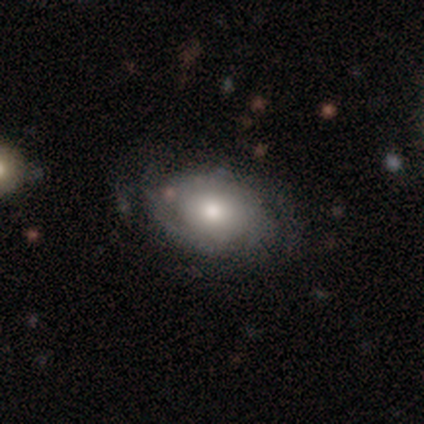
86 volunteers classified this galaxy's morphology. Smooth or featured? featured or disk (51%)
Edge-on disk? no (98%)
Bar? no (84%)
Spiral arms? yes (77%)
Spiral winding? tight (61%)
Spiral arm count? can't tell (48%)
Bulge size? moderate (63%)
Merging? none (66%)